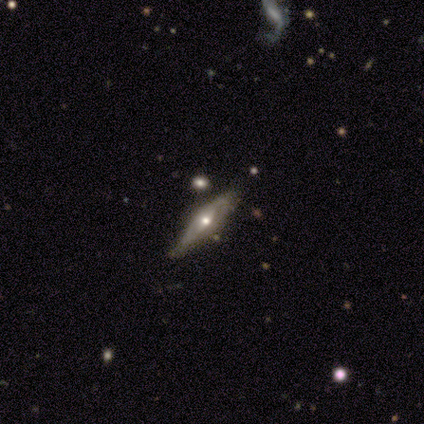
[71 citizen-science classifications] A featured or disk galaxy (79%) viewed edge-on (50%, tied with no) with a rounded central bulge (93%).

Vote fractions:
- Smooth or featured? featured or disk: 79% / smooth: 15% / star or artifact: 6%
- Edge-on disk? yes: 50% (tied) / no: 50% (tied)
- Edge-on bulge? rounded: 93% / none: 7% / boxy: 0%
- Merging? none: 69% / minor disturbance: 19% / merger: 9% / major disturbance: 3%